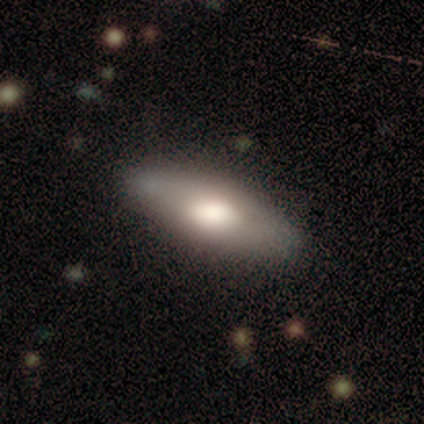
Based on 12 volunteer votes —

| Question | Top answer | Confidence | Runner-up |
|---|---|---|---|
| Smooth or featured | smooth | 58% | featured or disk (25%) |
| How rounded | in between | 86% | cigar-shaped (14%) |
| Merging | none | 90% | merger (10%) |